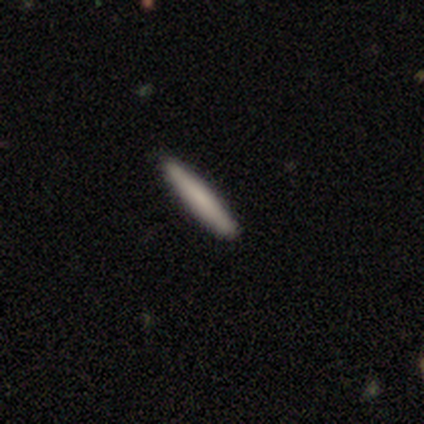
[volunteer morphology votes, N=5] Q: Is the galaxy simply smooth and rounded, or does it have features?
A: smooth — 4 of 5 (80%).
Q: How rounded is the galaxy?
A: cigar-shaped — 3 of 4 (75%).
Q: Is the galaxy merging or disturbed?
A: none — 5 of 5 (100%).